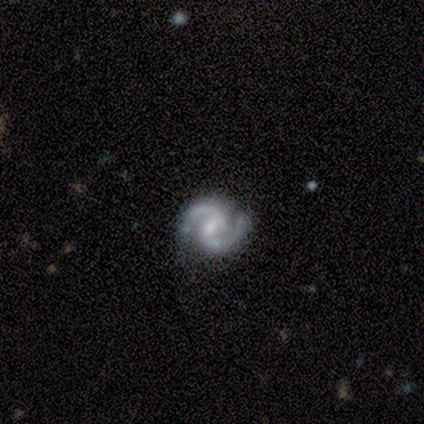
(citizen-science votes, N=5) smooth-or-featured: featured or disk: 100% | smooth: 0% | star or artifact: 0%
  disk-edge-on: no: 100% | yes: 0%
    bar: weak: 80% | no: 20% | strong: 0%
    has-spiral-arms: yes: 100% | no: 0%
      spiral-winding: medium: 60% | tight: 40% | loose: 0%
      spiral-arm-count: 2: 100% | 1: 0% | 3: 0% | 4: 0% | more than 4: 0% | can't tell: 0%
    bulge-size: small: 60% | moderate: 20% | none: 20% | dominant: 0% | large: 0%
  merging: none: 60% | minor disturbance: 40% | major disturbance: 0% | merger: 0%